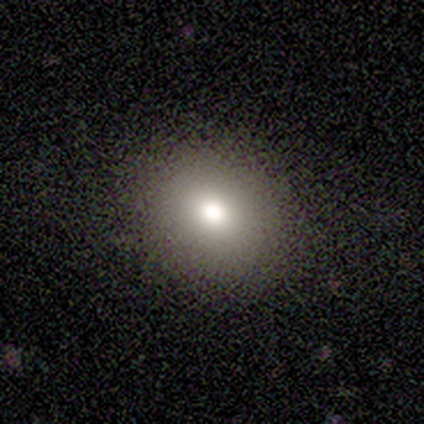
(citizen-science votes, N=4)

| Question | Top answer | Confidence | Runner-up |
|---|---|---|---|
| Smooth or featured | smooth | 100% | — |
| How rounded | round | 75% | in between (25%) |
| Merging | none | 100% | — |